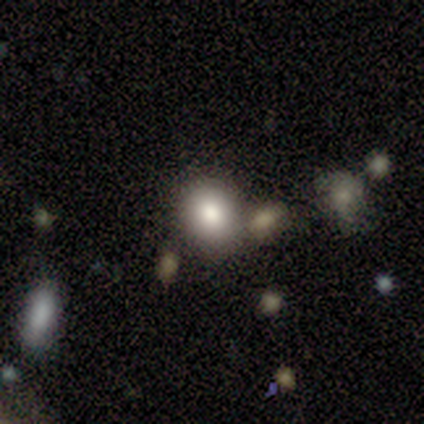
Smooth or featured?
  - smooth: 68% *
  - featured or disk: 18%
  - star or artifact: 15%
How rounded?
  - round: 70% *
  - in between: 30%
  - cigar-shaped: 0%
Merging?
  - none: 68% *
  - merger: 21%
  - minor disturbance: 12%
  - major disturbance: 0%